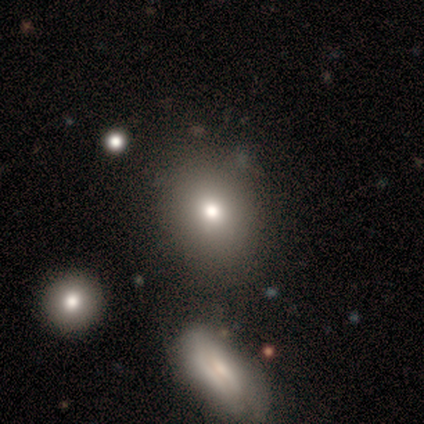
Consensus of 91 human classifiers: smooth 77%, featured or disk 13%, star or artifact 10%. Down the decision tree: how rounded — round (57%); merging — none (74%).